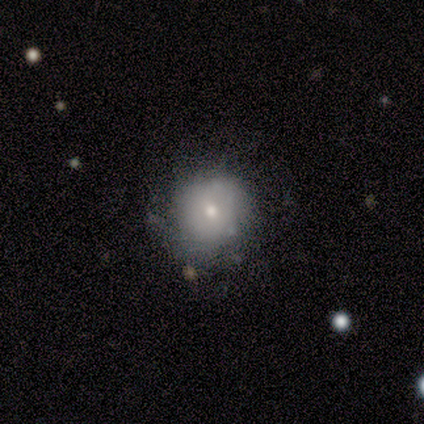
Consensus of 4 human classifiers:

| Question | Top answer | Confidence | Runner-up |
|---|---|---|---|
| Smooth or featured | smooth | 50% | tied: featured or disk (50%) |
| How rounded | round | 100% | — |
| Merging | none | 75% | merger (25%) |